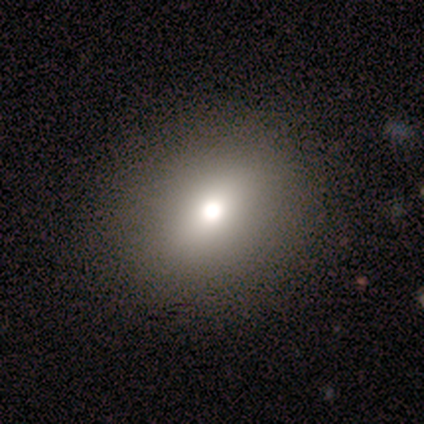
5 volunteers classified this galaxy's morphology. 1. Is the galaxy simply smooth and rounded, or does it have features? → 60% smooth, 40% star or artifact, 0% featured or disk.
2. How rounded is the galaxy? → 67% in between, 33% round, 0% cigar-shaped.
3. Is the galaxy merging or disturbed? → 100% none, 0% minor disturbance, 0% major disturbance, 0% merger.